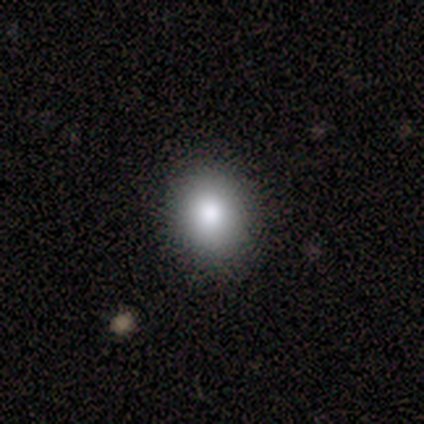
Smooth or featured? smooth (80%)
How rounded? round (100%)
Merging? none (100%)